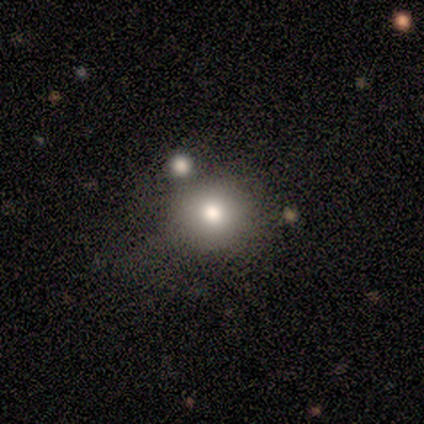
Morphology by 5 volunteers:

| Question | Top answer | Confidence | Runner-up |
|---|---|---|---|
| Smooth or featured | smooth | 80% | star or artifact (20%) |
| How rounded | round | 100% | — |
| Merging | none | 75% | merger (25%) |